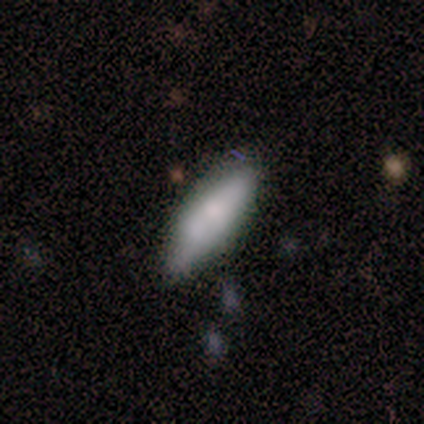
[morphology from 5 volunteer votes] smooth 60%, featured or disk 20%, star or artifact 20%. Down the decision tree: how rounded — in between (67%); merging — none (50%, tied with minor disturbance).